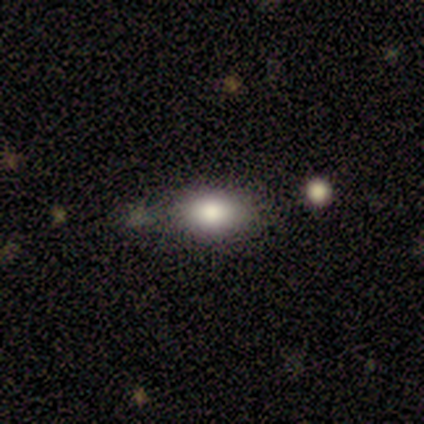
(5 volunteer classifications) smooth-or-featured: smooth: 60% | featured or disk: 20% | star or artifact: 20%
  how-rounded: in between: 67% | round: 33% | cigar-shaped: 0%
  merging: none: 50% (tied) | minor disturbance: 50% (tied) | major disturbance: 0% | merger: 0%